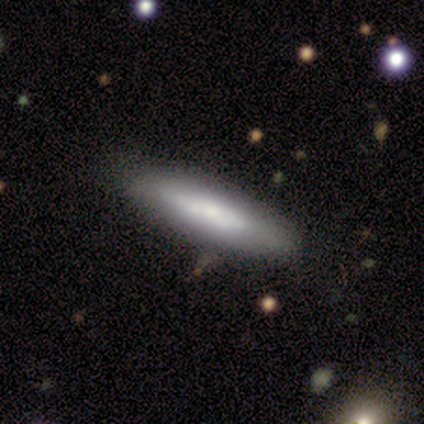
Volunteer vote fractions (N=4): featured or disk 100%, smooth 0%, star or artifact 0%. Down the decision tree: edge-on disk — yes (50%, tied with no); edge-on bulge — none (100%); merging — none (100%).